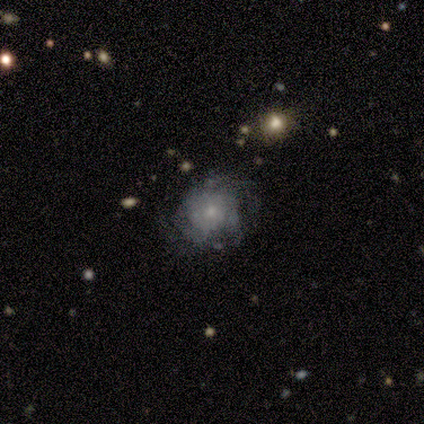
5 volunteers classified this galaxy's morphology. featured or disk 80%, smooth 20%, star or artifact 0%. Down the decision tree: edge-on disk — no (100%); bar — no (75%); spiral arms — yes (100%); spiral arm count — can't tell (100%); spiral winding — tight (50%); bulge size — small (50%, tied with none); merging — none (60%).